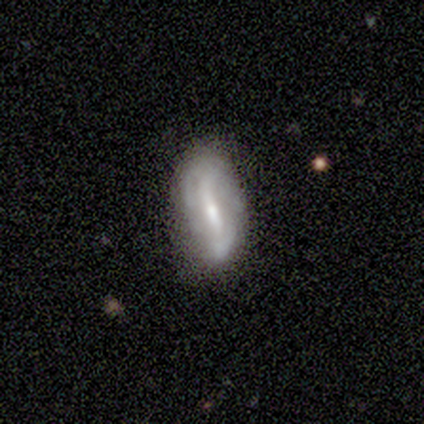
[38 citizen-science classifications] Q: Smooth or featured?
A: featured or disk (63%); runner-up: smooth (32%)
Q: Edge-on disk?
A: no (96%); runner-up: yes (4%)
Q: Bar?
A: strong (57%); runner-up: weak (43%)
Q: Spiral arms?
A: yes (70%); runner-up: no (30%)
Q: Spiral winding?
A: loose (50%); runner-up: medium (31%)
Q: Spiral arm count?
A: 2 (50%); runner-up: can't tell (31%)
Q: Bulge size?
A: small (61%); runner-up: moderate (35%)
Q: Merging?
A: none (67%); runner-up: minor disturbance (28%)